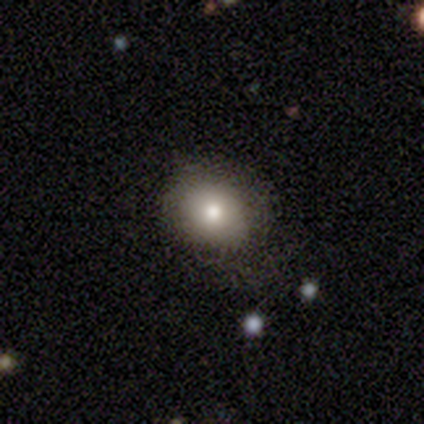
A smooth galaxy with no disk features (80%) that is round (50%, tied with in between). Merging: minor disturbance (60%).